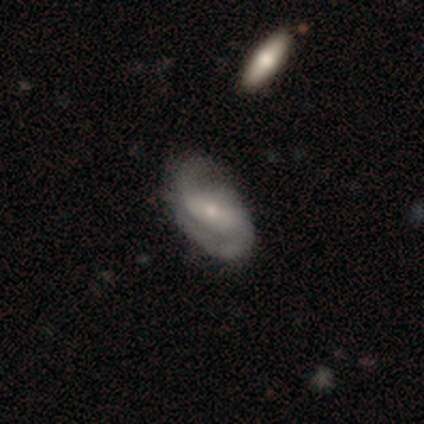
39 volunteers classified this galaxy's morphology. Smooth or featured: featured or disk — 77% (smooth — 18%)
Edge-on disk: no — 97% (yes — 3%)
Bar: strong — 48% (no — 31%)
Spiral arms: yes — 100%
Spiral winding: medium — 52% (tight — 28%)
Spiral arm count: 2 — 90% (3 — 7%)
Bulge size: small — 66% (moderate — 31%)
Merging: none — 43% (minor disturbance — 11%)